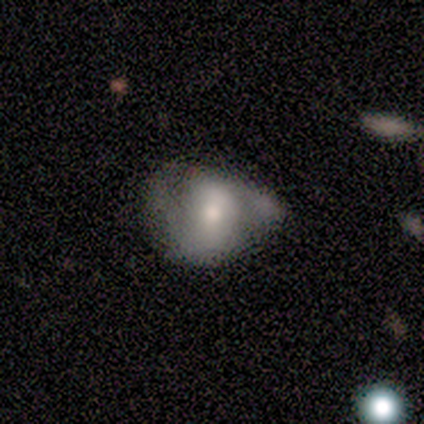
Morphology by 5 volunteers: smooth_or_featured: smooth (p=1.00)
how_rounded: in between (p=1.00)
merging: minor disturbance (p=0.60) [alt: none p=0.20]